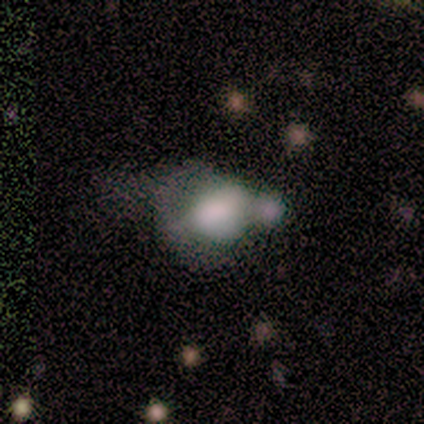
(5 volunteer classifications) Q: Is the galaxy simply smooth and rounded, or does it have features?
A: smooth — 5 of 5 (100%).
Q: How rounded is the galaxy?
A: round — 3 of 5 (60%).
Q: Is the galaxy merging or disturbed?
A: merger — 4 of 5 (80%).